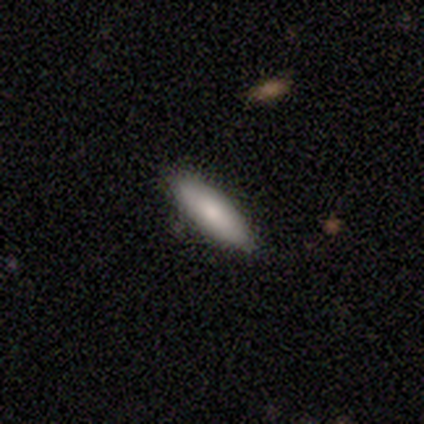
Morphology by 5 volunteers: smooth_or_featured: smooth (p=0.80) [alt: featured or disk p=0.20]
how_rounded: in between (p=0.50) [tied with: cigar-shaped p=0.50]
merging: none (p=0.80) [alt: minor disturbance p=0.20]